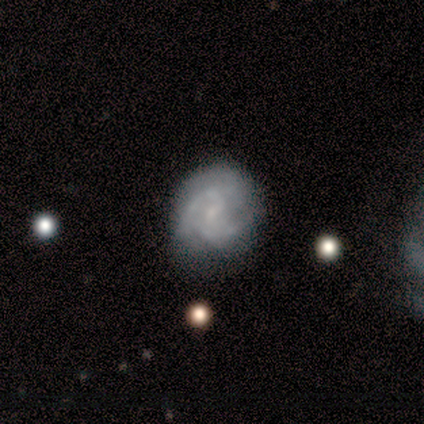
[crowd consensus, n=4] This is likely a featured or disk galaxy (75%). It is clearly not viewed edge-on (100%). Bar: clearly weak (100%). Spiral arm pattern: clearly yes (100%). Spiral arm count: marginally 2 (33%, tied with 4 and can't tell). Spiral winding: likely medium (67%). Central bulge: clearly small (100%). Merging: possibly none (50%, tied with minor disturbance).